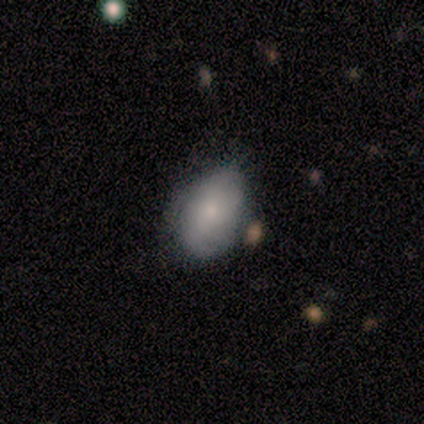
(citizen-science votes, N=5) Overall: smooth (80%). How rounded: in between (75%). Merging: none (40%, tied with minor disturbance).